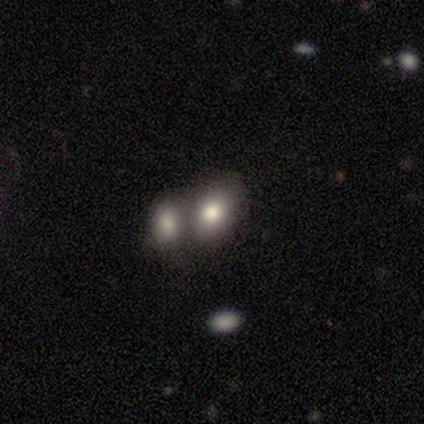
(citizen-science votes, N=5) A smooth galaxy with no disk features (80%) that is in between round and cigar-shaped (75%).

Vote fractions:
- Smooth or featured? smooth: 80% / featured or disk: 20% / star or artifact: 0%
- How rounded? in between: 75% / round: 25% / cigar-shaped: 0%
- Merging? none: 60% / major disturbance: 20% / merger: 20% / minor disturbance: 0%